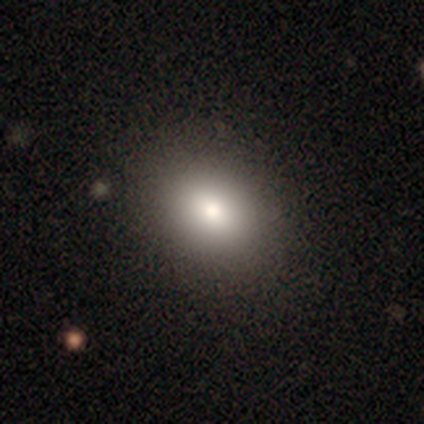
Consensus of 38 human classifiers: Volunteers were most divided on "how rounded": in between: 74%, round: 26%, cigar-shaped: 0%. More confident: smooth or featured — smooth (89%); merging — none (66%).